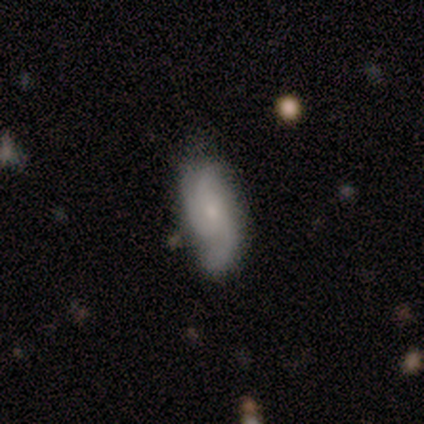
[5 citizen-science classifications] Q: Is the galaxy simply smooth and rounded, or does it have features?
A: featured or disk — 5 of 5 (100%).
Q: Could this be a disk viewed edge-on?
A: no — 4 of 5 (80%).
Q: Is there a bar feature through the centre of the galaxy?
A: weak — 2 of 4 (50%, tied with no).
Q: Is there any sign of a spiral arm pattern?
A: yes — 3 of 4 (75%).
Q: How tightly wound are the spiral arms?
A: loose — 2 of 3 (67%).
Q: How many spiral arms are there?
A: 3 — 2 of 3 (67%).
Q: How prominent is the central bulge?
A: small — 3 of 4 (75%).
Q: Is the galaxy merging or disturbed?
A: none — 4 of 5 (80%).